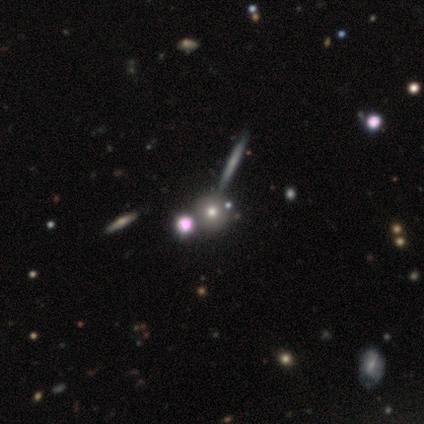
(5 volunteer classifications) Morphology: type=smooth (80%); roundness=round (75%); merging=none (80%).